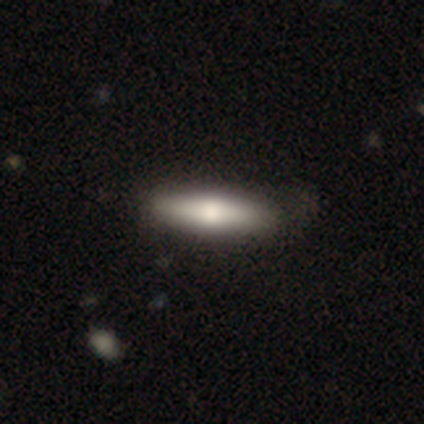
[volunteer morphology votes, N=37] Smooth or featured?
  - smooth: 78% *
  - featured or disk: 22%
  - star or artifact: 0%
How rounded?
  - cigar-shaped: 76% *
  - in between: 24%
  - round: 0%
Merging?
  - none: 57% *
  - minor disturbance: 19%
  - major disturbance: 3%
  - merger: 3%